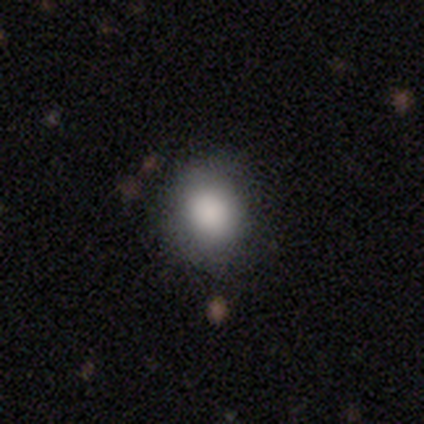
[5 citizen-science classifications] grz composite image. It shows a smooth galaxy with no disk features (80%) that is round (100%). Merging: none (80%).